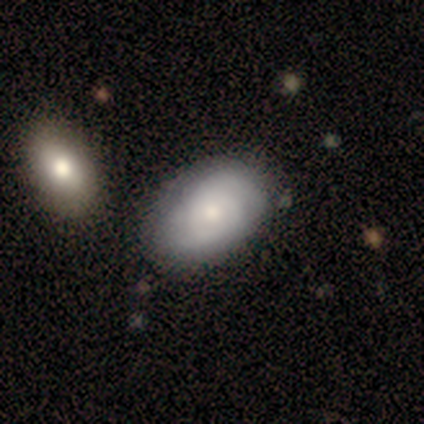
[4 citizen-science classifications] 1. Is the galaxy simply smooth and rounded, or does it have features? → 75% smooth, 25% featured or disk, 0% star or artifact.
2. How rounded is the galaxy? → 100% in between, 0% round, 0% cigar-shaped.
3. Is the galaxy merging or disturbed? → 75% none, 25% minor disturbance, 0% major disturbance, 0% merger.